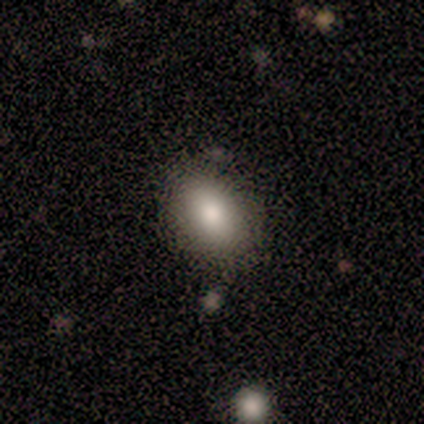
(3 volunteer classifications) smooth 33% (tied), featured or disk 33% (tied), star or artifact 33% (tied). Down the decision tree: how rounded — in between (100%); merging — none (100%).